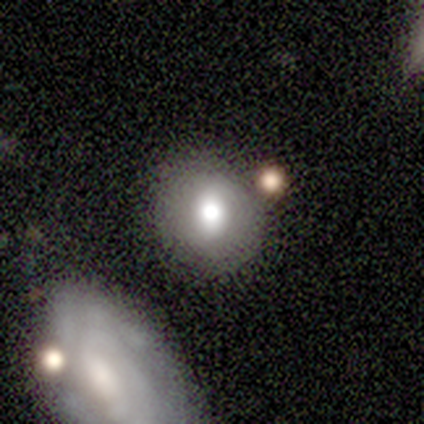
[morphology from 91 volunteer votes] This is likely a smooth galaxy (65%). How rounded: likely round (75%). Merging: likely none (67%).